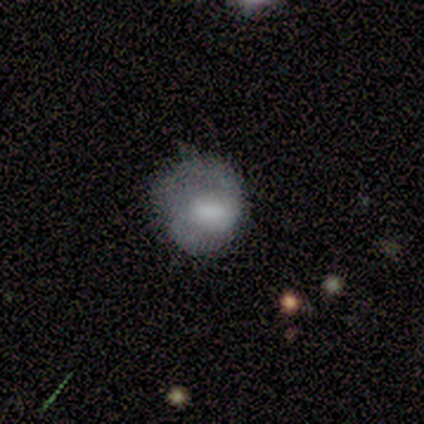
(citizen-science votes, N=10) smooth-or-featured: smooth: 60% | featured or disk: 40% | star or artifact: 0%
  how-rounded: round: 83% | in between: 17% | cigar-shaped: 0%
  merging: minor disturbance: 50% | none: 40% | major disturbance: 10% | merger: 0%